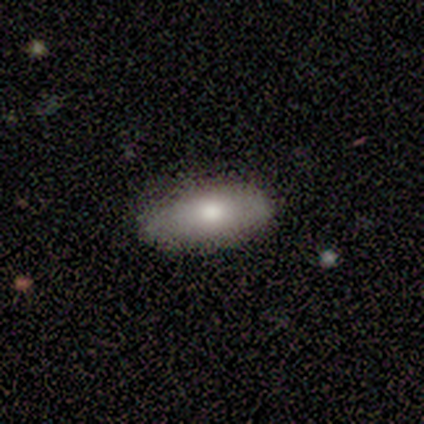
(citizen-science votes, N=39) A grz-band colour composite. It shows a smooth galaxy with no disk features (79%) that is in between round and cigar-shaped (87%). Merging: none (83%).